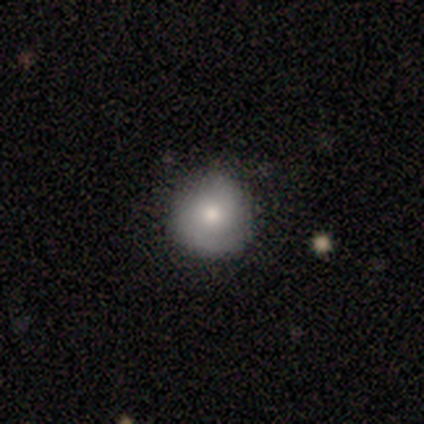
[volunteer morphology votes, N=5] A smooth galaxy with no disk features (60%) that is round (100%). Merging: none (100%).